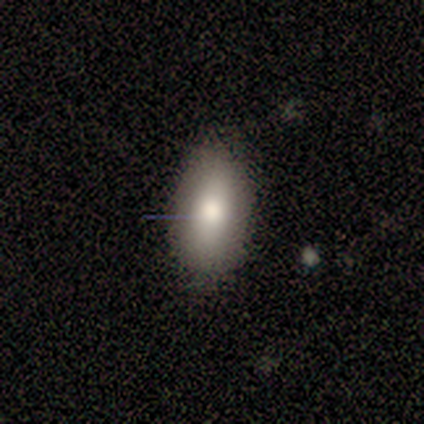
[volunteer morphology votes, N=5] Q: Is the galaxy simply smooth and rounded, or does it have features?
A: smooth — 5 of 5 (100%).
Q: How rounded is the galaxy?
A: in between — 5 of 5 (100%).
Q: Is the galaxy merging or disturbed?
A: none — 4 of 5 (80%).